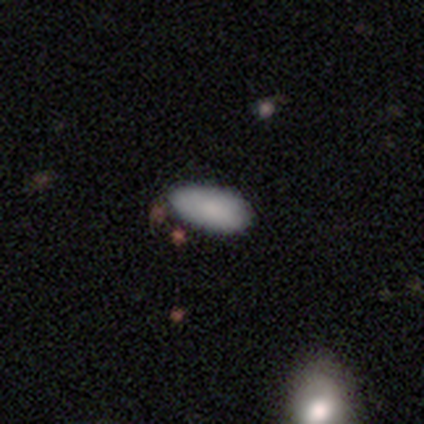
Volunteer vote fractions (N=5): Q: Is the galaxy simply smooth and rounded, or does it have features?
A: smooth — 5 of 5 (100%).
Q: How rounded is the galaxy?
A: in between — 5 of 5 (100%).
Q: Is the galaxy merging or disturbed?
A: none — 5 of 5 (100%).